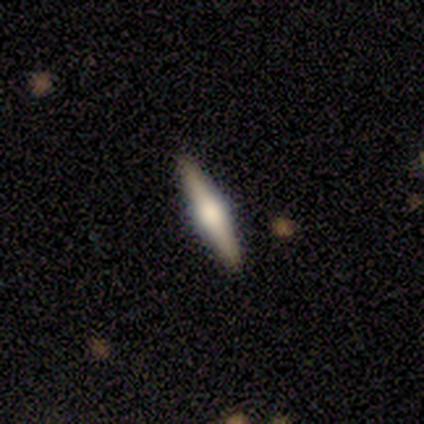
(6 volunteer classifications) A smooth galaxy with no disk features (50%, tied with featured or disk) that is cigar-shaped (100%).

Vote fractions:
- Smooth or featured? smooth: 50% (tied) / featured or disk: 50% (tied) / star or artifact: 0%
- How rounded? cigar-shaped: 100% / round: 0% / in between: 0%
- Merging? none: 100% / minor disturbance: 0% / major disturbance: 0% / merger: 0%